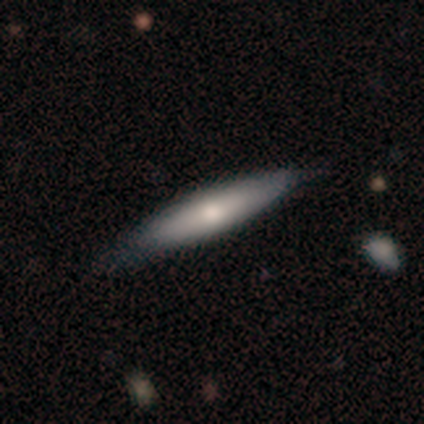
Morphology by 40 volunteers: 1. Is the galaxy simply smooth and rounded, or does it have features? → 72% smooth, 28% featured or disk, 0% star or artifact.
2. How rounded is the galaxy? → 93% cigar-shaped, 7% in between, 0% round.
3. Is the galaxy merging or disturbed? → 52% none, 15% minor disturbance, 0% major disturbance, 0% merger.